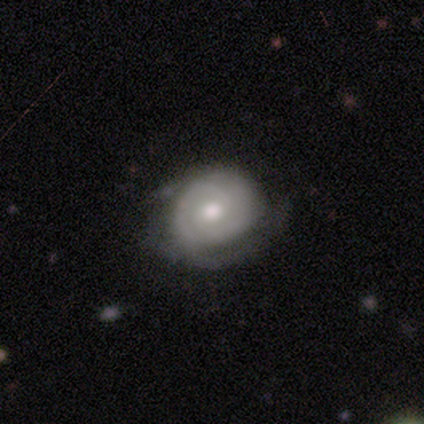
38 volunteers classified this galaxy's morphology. featured or disk 82%, smooth 13%, star or artifact 5%. Down the decision tree: edge-on disk — no (100%); bar — no (74%); spiral arms — yes (90%); spiral arm count — 2 (68%); spiral winding — tight (61%); bulge size — moderate (84%); merging — none (72%).